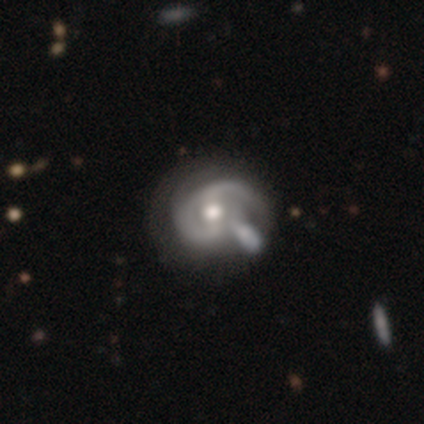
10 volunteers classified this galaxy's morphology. smooth_or_featured: featured or disk (p=0.90) [alt: smooth p=0.10]
disk_edge_on: no (p=1.00)
bar: weak (p=0.56) [alt: no p=0.44]
has_spiral_arms: yes (p=1.00)
spiral_winding: tight (p=0.56) [alt: medium p=0.44]
spiral_arm_count: 2 (p=0.44) [alt: 1 p=0.33]
bulge_size: moderate (p=0.67) [alt: small p=0.22]
merging: none (p=0.40) [alt: merger p=0.30]